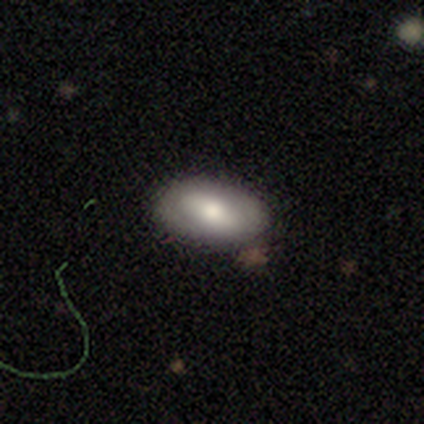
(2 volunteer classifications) Smooth or featured? smooth (50%, tied with featured or disk)
How rounded? in between (100%)
Merging? none (100%)